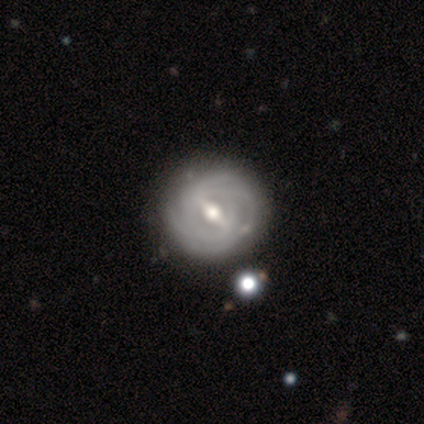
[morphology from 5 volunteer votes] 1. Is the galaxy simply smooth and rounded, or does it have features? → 100% featured or disk, 0% smooth, 0% star or artifact.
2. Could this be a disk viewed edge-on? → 100% no, 0% yes.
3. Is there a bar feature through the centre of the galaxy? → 60% strong, 40% weak, 0% no.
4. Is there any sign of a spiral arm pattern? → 100% yes, 0% no.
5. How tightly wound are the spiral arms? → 80% tight, 20% medium, 0% loose.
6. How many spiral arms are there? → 40% 2, 20% 4, 20% more than 4, 20% can't tell, 0% 1, 0% 3.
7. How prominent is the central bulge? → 100% moderate, 0% dominant, 0% large, 0% small, 0% none.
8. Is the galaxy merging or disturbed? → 80% none, 20% minor disturbance, 0% major disturbance, 0% merger.